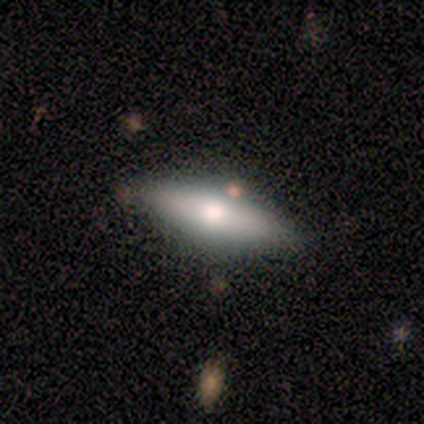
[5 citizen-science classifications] A star or artifact, not a galaxy (60%).